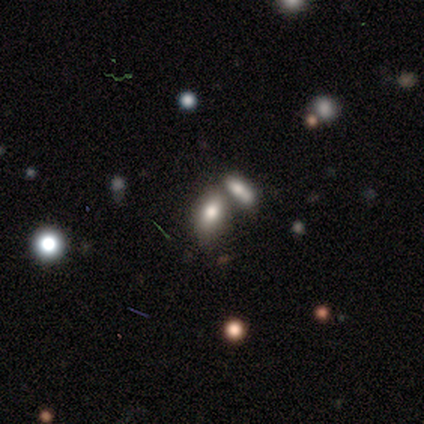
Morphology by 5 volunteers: Q: Smooth or featured?
A: star or artifact (60%); runner-up: smooth (40%)